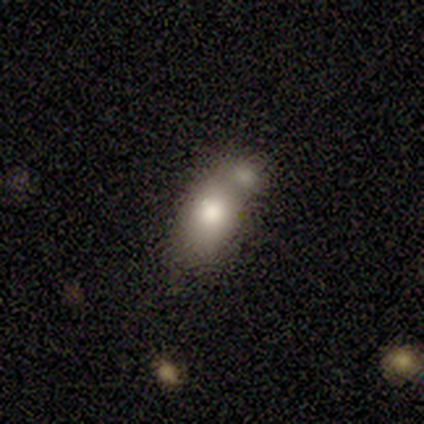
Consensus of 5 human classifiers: This appears to be a smooth galaxy with no disk features (40%, tied with star or artifact) that is in between round and cigar-shaped (100%). Merging: merger (100%).